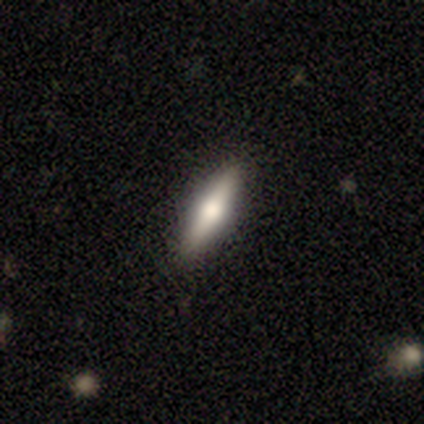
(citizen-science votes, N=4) This appears to be a smooth galaxy with no disk features (50%, tied with featured or disk) that is cigar-shaped (100%). Merging: none (100%).